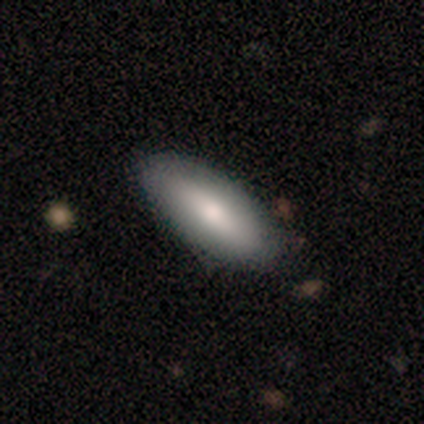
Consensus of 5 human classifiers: Volunteers were most divided on "smooth or featured": smooth: 80%, star or artifact: 20%, featured or disk: 0%. More confident: how rounded — in between (100%); merging — none (100%).